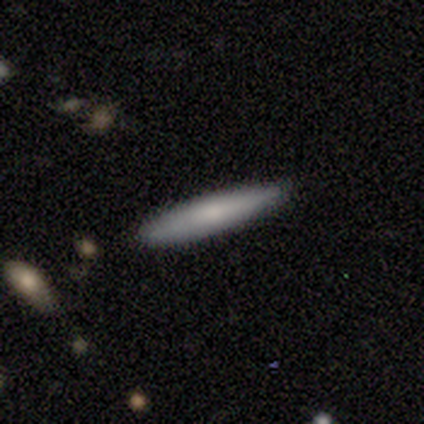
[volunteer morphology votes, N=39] Smooth or featured?
  - smooth: 67% *
  - featured or disk: 31%
  - star or artifact: 3%
How rounded?
  - cigar-shaped: 100% *
  - round: 0%
  - in between: 0%
Merging?
  - none: 84% *
  - minor disturbance: 16%
  - major disturbance: 0%
  - merger: 0%